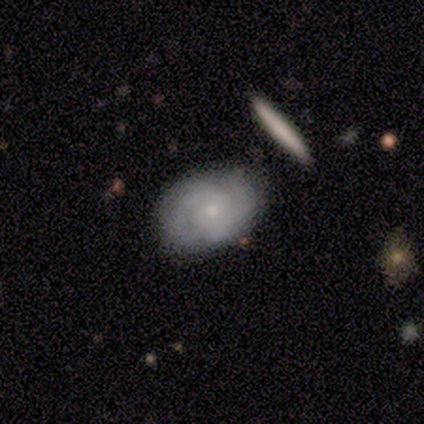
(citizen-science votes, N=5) Smooth or featured?
  - featured or disk: 60% *
  - smooth: 40%
  - star or artifact: 0%
Edge-on disk?
  - no: 100% *
  - yes: 0%
Bar?
  - weak: 67% *
  - no: 33%
  - strong: 0%
Spiral arms?
  - yes: 100% *
  - no: 0%
Spiral winding?
  - medium: 100% *
  - tight: 0%
  - loose: 0%
Spiral arm count?
  - 2: 67% *
  - can't tell: 33%
  - 1: 0%
  - 3: 0%
  - 4: 0%
  - more than 4: 0%
Bulge size?
  - small: 100% *
  - dominant: 0%
  - large: 0%
  - moderate: 0%
  - none: 0%
Merging?
  - none: 80% *
  - minor disturbance: 20%
  - major disturbance: 0%
  - merger: 0%